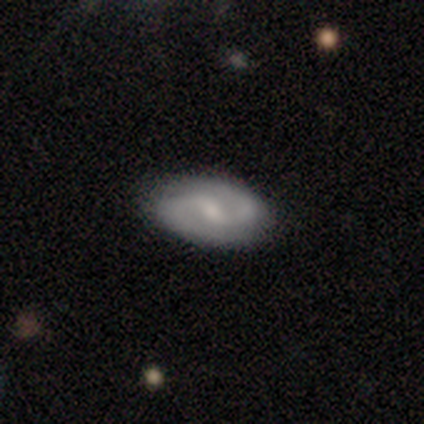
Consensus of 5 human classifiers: A featured or disk galaxy (80%) with no bar (67%), 2 (100%) medium (67%) spiral arms (100%) and a small central bulge (67%). Merging: none (100%).